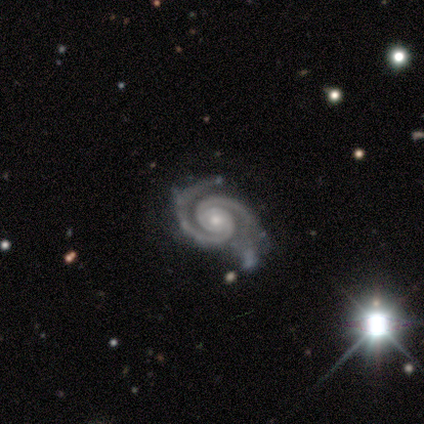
A featured or disk galaxy (100%) with a weak bar (50%, tied with no), 2 (100%) tight (100%) spiral arms (100%) and a small central bulge (75%).

Vote fractions:
- Smooth or featured? featured or disk: 100% / smooth: 0% / star or artifact: 0%
- Edge-on disk? no: 80% / yes: 20%
- Bar? weak: 50% (tied) / no: 50% (tied) / strong: 0%
- Spiral arms? yes: 100% / no: 0%
- Spiral winding? tight: 100% / medium: 0% / loose: 0%
- Spiral arm count? 2: 100% / 1: 0% / 3: 0% / 4: 0% / more than 4: 0% / can't tell: 0%
- Bulge size? small: 75% / moderate: 25% / dominant: 0% / large: 0% / none: 0%
- Merging? none: 100% / minor disturbance: 0% / major disturbance: 0% / merger: 0%